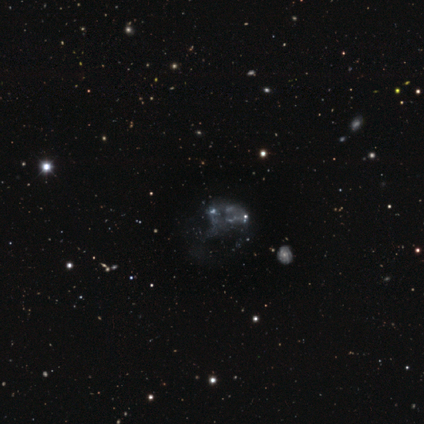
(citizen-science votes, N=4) A featured or disk galaxy (50%) with no bar (100%), no spiral arms (100%) and no central bulge (100%).

Vote fractions:
- Smooth or featured? featured or disk: 50% / smooth: 25% / star or artifact: 25%
- Edge-on disk? no: 100% / yes: 0%
- Bar? no: 100% / strong: 0% / weak: 0%
- Spiral arms? no: 100% / yes: 0%
- Bulge size? none: 100% / dominant: 0% / large: 0% / moderate: 0% / small: 0%
- Merging? none: 33% (tied) / major disturbance: 33% (tied) / merger: 33% (tied) / minor disturbance: 0%